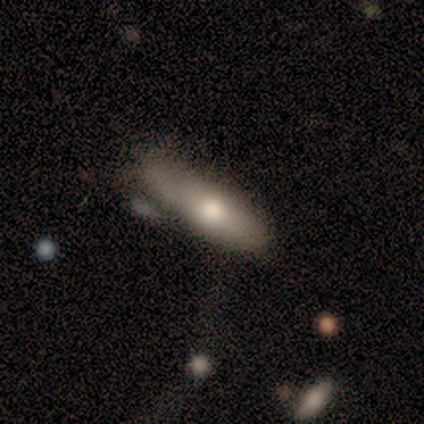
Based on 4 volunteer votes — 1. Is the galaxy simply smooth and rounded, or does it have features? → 75% smooth, 25% featured or disk, 0% star or artifact.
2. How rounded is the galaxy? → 100% in between, 0% round, 0% cigar-shaped.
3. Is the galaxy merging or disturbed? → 75% none, 25% minor disturbance, 0% major disturbance, 0% merger.